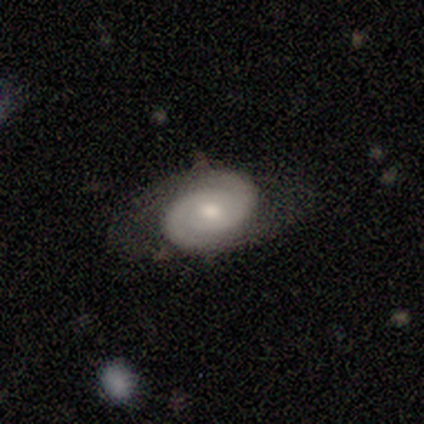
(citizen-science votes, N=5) smooth_or_featured: featured or disk (p=1.00)
disk_edge_on: no (p=1.00)
bar: weak (p=0.40) [tied with: no p=0.40]
has_spiral_arms: yes (p=1.00)
spiral_winding: tight (p=0.40) [tied with: medium p=0.40]
spiral_arm_count: 2 (p=1.00)
bulge_size: small (p=0.60) [alt: moderate p=0.40]
merging: none (p=1.00)